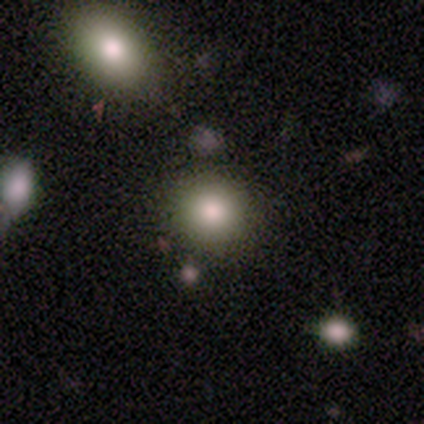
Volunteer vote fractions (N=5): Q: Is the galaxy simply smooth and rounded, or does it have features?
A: smooth — 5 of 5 (100%).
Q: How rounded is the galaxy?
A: round — 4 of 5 (80%).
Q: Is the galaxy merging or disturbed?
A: none — 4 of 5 (80%).